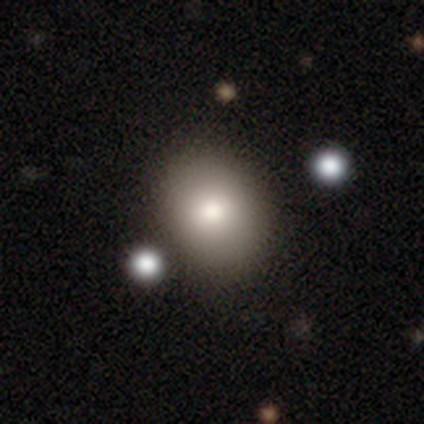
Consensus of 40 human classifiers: smooth_or_featured: smooth (p=0.82) [alt: star or artifact p=0.10]
how_rounded: in between (p=0.52) [alt: round p=0.48]
merging: none (p=0.58) [alt: merger p=0.17]